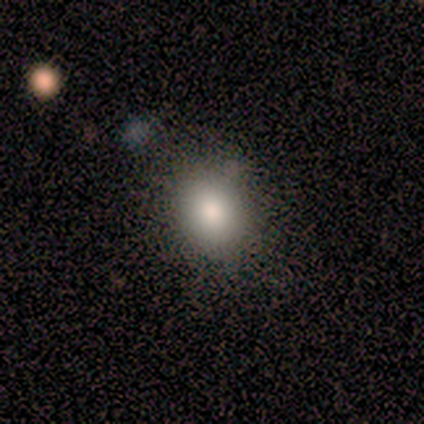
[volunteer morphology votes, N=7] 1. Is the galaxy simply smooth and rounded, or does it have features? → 100% smooth, 0% featured or disk, 0% star or artifact.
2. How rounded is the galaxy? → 57% round, 43% in between, 0% cigar-shaped.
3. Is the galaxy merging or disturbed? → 86% none, 14% minor disturbance, 0% major disturbance, 0% merger.